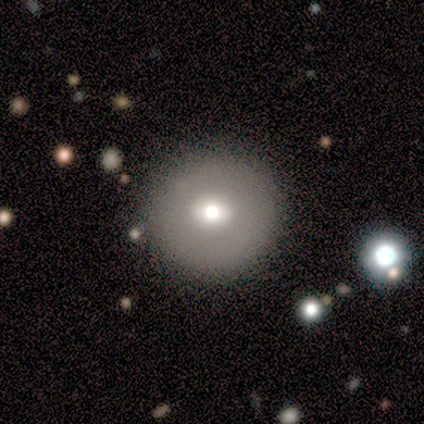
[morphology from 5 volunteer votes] type=smooth (60%); roundness=round (100%); merging=none (100%).